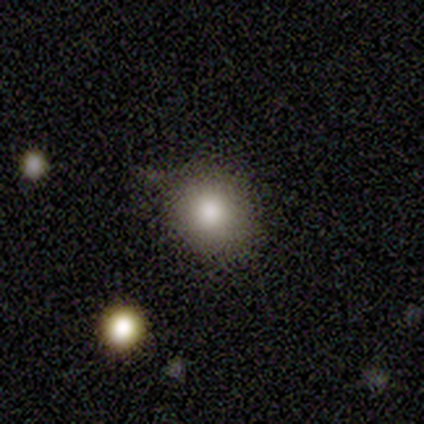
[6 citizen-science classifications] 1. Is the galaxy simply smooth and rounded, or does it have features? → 83% smooth, 17% star or artifact, 0% featured or disk.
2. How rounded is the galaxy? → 80% round, 20% in between, 0% cigar-shaped.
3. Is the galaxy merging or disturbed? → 100% none, 0% minor disturbance, 0% major disturbance, 0% merger.